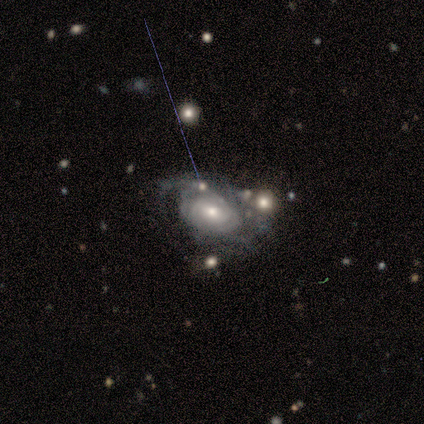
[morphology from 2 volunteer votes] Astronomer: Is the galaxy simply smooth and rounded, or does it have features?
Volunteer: featured or disk — 100%.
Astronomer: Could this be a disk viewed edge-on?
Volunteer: no — 100%.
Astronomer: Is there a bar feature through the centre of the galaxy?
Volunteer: weak — 50%, tied with no at 50%.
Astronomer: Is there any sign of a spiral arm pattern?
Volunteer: yes — 100%.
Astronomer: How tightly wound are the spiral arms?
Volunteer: tight — 100%.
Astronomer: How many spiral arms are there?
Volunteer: can't tell — 100%.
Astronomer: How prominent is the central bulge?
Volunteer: small — 100%.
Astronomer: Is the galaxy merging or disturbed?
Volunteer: major disturbance — 100%.